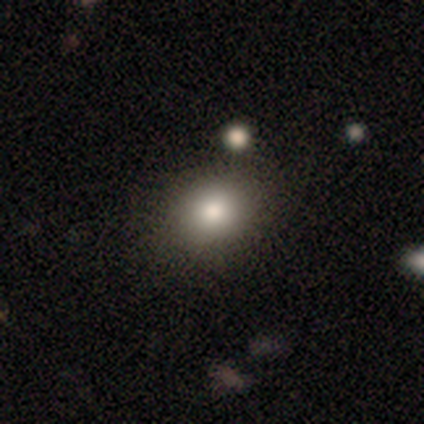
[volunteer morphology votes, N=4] Smooth or featured? 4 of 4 (100%) said smooth. How rounded? 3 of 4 (75%) said in between. Merging? 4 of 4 (100%) said none.